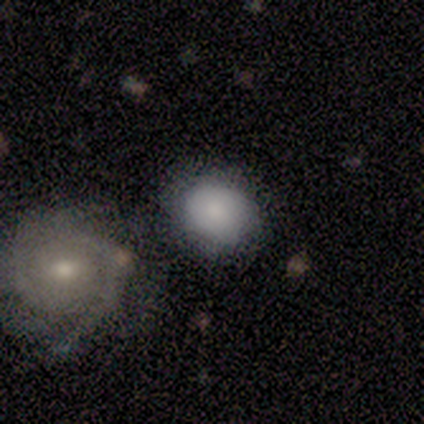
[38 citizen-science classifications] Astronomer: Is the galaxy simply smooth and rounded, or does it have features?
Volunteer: smooth — 61%.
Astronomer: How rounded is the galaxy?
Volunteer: round — 87%.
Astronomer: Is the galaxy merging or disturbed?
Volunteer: none — 69%.